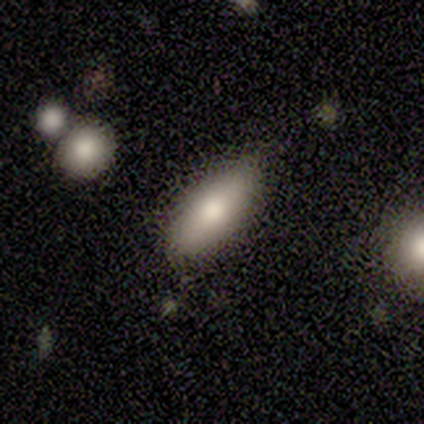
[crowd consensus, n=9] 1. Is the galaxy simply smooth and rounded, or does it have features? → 78% smooth, 22% featured or disk, 0% star or artifact.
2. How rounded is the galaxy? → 86% in between, 14% cigar-shaped, 0% round.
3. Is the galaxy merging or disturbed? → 100% none, 0% minor disturbance, 0% major disturbance, 0% merger.